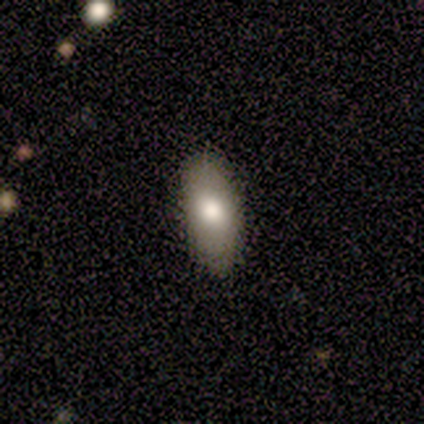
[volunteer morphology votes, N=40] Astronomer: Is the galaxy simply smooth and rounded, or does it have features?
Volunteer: smooth — 82%.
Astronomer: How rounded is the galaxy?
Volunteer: in between — 91%.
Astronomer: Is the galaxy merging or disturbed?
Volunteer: none — 82%.